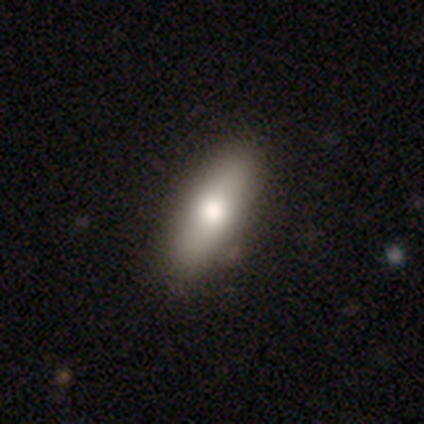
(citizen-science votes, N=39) This appears to be a smooth galaxy with no disk features (62%) that is in between round and cigar-shaped (62%). Merging: none (42%).